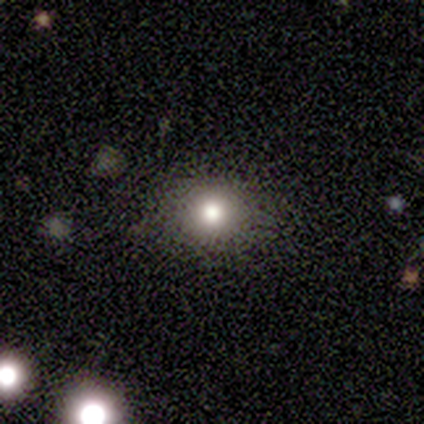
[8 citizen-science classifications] Volunteers were most divided on "smooth or featured": smooth: 62%, star or artifact: 25%, featured or disk: 12%. More confident: merging — none (83%); how rounded — round (80%).